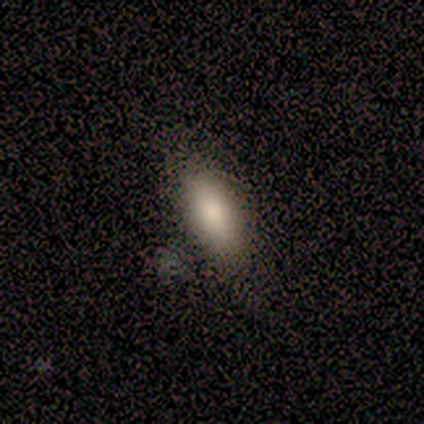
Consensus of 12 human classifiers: smooth-or-featured: smooth: 100% | featured or disk: 0% | star or artifact: 0%
  how-rounded: in between: 92% | round: 8% | cigar-shaped: 0%
  merging: none: 67% | minor disturbance: 17% | major disturbance: 8% | merger: 8%